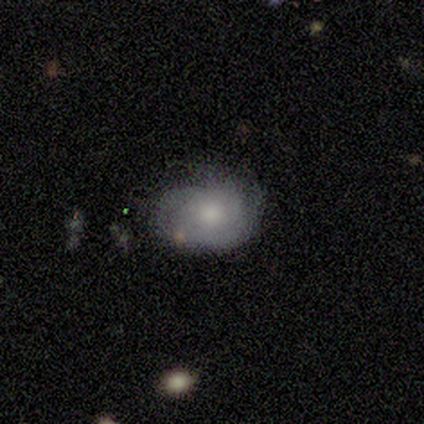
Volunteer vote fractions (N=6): This appears to be a smooth galaxy with no disk features (50%, tied with featured or disk) that is in between round and cigar-shaped (67%). Merging: none (67%).